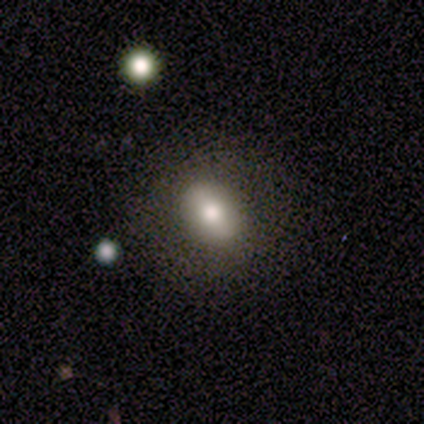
Smooth or featured: featured or disk — 60% (smooth — 40%)
Edge-on disk: no — 100%
Bar: no — 67% (weak — 33%)
Spiral arms: no — 100%
Bulge size: large — 33% (tied with moderate — 33%; small — 33%)
Merging: none — 100%